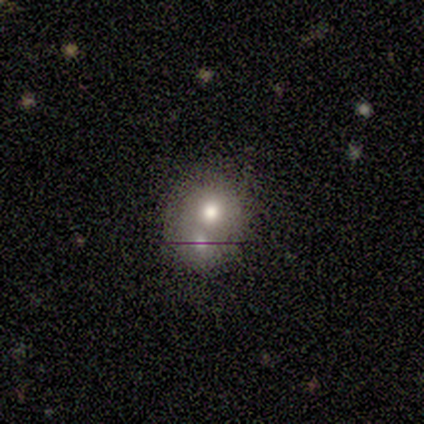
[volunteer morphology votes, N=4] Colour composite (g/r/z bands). It shows a smooth galaxy with no disk features (50%) that is round (100%). Merging: merger (100%).